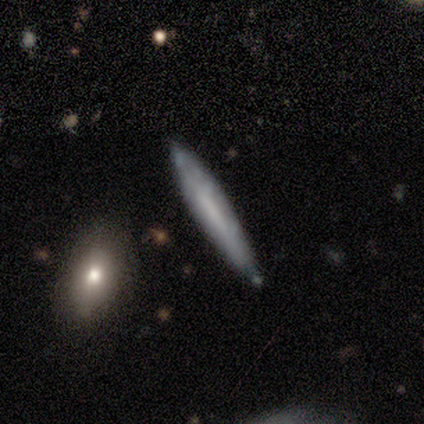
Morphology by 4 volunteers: A smooth galaxy with no disk features (50%, tied with featured or disk) that is cigar-shaped (100%).

Vote fractions:
- Smooth or featured? smooth: 50% (tied) / featured or disk: 50% (tied) / star or artifact: 0%
- How rounded? cigar-shaped: 100% / round: 0% / in between: 0%
- Merging? none: 100% / minor disturbance: 0% / major disturbance: 0% / merger: 0%